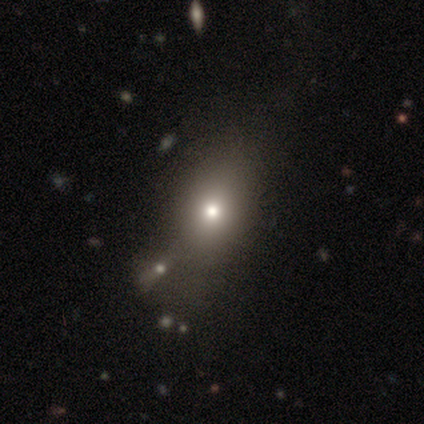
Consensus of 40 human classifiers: smooth 68%, star or artifact 20%, featured or disk 12%. Down the decision tree: how rounded — in between (74%); merging — merger (34%).